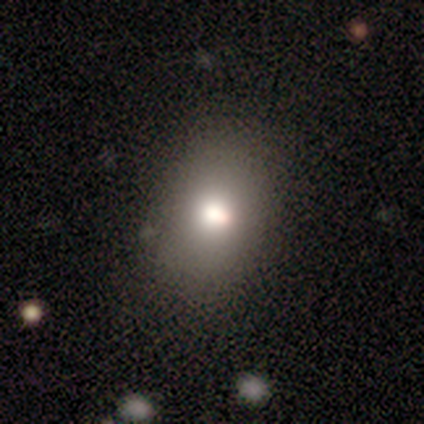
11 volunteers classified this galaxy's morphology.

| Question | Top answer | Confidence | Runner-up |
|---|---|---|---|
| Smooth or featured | smooth | 73% | featured or disk (18%) |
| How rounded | in between | 75% | round (12%) |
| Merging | none | 60% | minor disturbance (30%) |